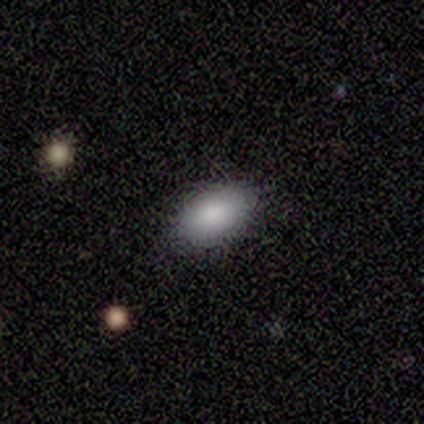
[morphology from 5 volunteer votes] This appears to be a smooth galaxy with no disk features (80%) that is in between round and cigar-shaped (100%). Merging: none (100%).